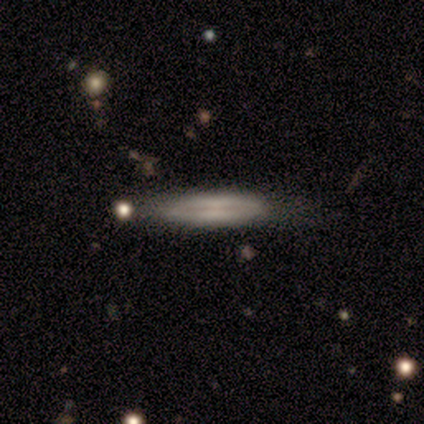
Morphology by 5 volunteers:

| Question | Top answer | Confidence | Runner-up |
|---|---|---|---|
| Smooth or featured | smooth | 40% | tied: featured or disk (40%) |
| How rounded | cigar-shaped | 100% | — |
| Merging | none | 100% | — |